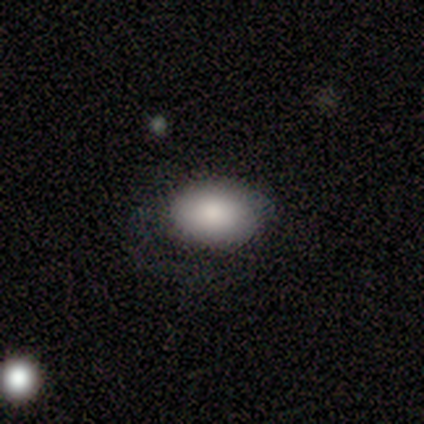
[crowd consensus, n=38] This is likely a smooth galaxy (76%). How rounded: clearly in between (90%). Merging: marginally none (34%).